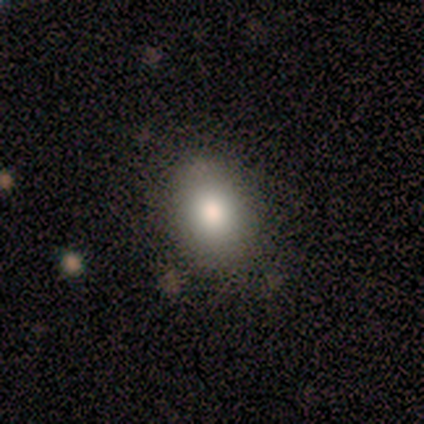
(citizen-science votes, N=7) Smooth or featured?
  - smooth: 86% *
  - featured or disk: 14%
  - star or artifact: 0%
How rounded?
  - in between: 83% *
  - round: 17%
  - cigar-shaped: 0%
Merging?
  - none: 71% *
  - minor disturbance: 29%
  - major disturbance: 0%
  - merger: 0%